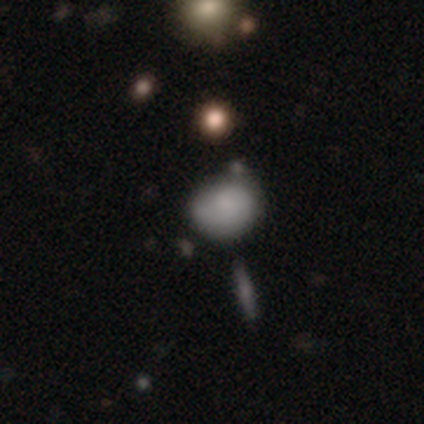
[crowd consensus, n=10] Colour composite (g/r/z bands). It shows a smooth galaxy with no disk features (60%) that is round (50%, tied with in between). Merging: none (50%).